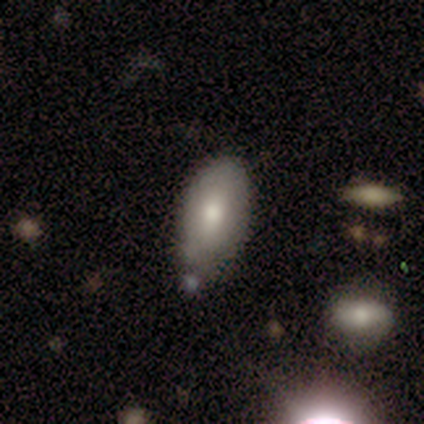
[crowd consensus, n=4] Overall: smooth (50%, tied with featured or disk). How rounded: in between (100%). Merging: minor disturbance (75%).